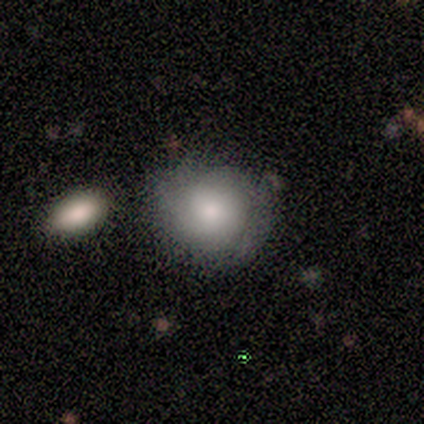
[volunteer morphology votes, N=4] Smooth or featured? 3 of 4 (75%) said smooth. How rounded? 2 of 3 (67%) said round. Merging? 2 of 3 (67%) said minor disturbance.